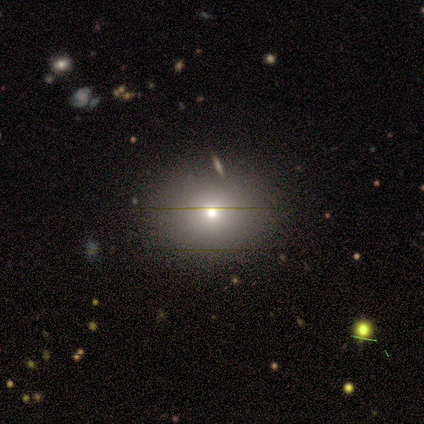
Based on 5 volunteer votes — Overall: smooth (80%). How rounded: in between (75%). Merging: none (100%).